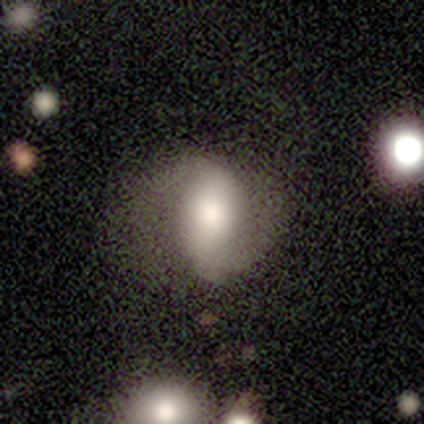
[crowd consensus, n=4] Q: Smooth or featured?
A: featured or disk (75%); runner-up: smooth (25%)
Q: Edge-on disk?
A: no (100%)
Q: Bar?
A: weak (67%); runner-up: strong (33%)
Q: Spiral arms?
A: yes (100%)
Q: Spiral winding?
A: tight (67%); runner-up: loose (33%)
Q: Spiral arm count?
A: 2 (67%); runner-up: 1 (33%)
Q: Bulge size?
A: large (67%); runner-up: moderate (33%)
Q: Merging?
A: none (75%); runner-up: merger (25%)